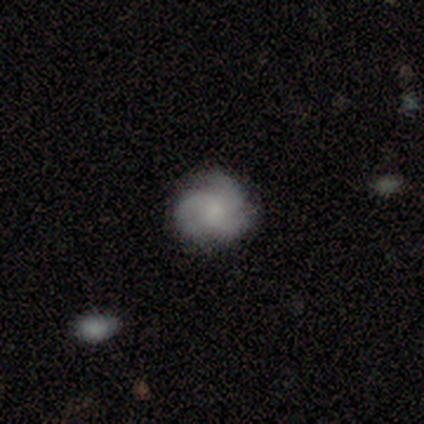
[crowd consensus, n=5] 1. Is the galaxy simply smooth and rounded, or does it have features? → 100% featured or disk, 0% smooth, 0% star or artifact.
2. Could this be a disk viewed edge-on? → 100% no, 0% yes.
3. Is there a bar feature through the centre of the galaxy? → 80% no, 20% weak, 0% strong.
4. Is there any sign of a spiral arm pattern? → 100% yes, 0% no.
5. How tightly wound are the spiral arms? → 80% medium, 20% tight, 0% loose.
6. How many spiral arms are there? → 80% 3, 20% 4, 0% 1, 0% 2, 0% more than 4, 0% can't tell.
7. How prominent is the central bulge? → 60% moderate, 40% small, 0% dominant, 0% large, 0% none.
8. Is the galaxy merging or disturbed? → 80% none, 20% minor disturbance, 0% major disturbance, 0% merger.